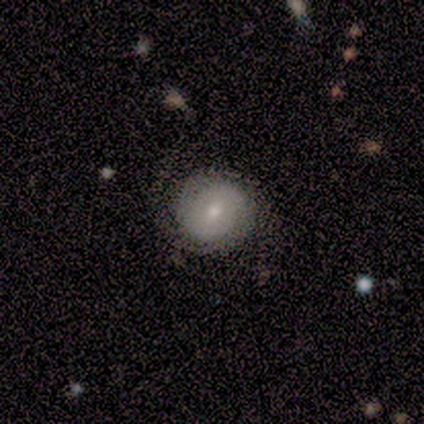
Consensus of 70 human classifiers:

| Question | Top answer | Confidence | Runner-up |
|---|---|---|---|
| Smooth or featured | featured or disk | 63% | smooth (31%) |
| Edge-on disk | no | 98% | yes (2%) |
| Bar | no | 77% | weak (21%) |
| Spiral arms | yes | 88% | no (12%) |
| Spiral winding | tight | 45% | medium (42%) |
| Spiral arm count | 2 | 58% | can't tell (29%) |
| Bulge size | moderate | 56% | small (40%) |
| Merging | none | 71% | minor disturbance (18%) |